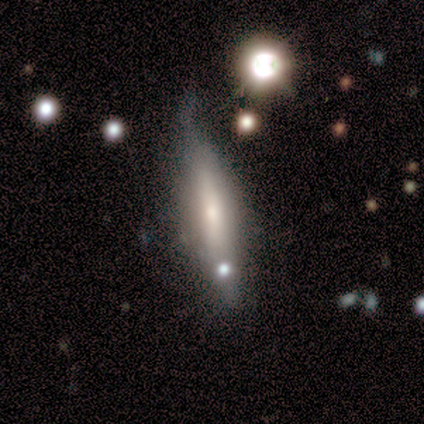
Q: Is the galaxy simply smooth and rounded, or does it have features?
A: smooth — 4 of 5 (80%).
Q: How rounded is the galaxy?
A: in between — 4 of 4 (100%).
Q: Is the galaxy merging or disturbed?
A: minor disturbance — 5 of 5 (100%).